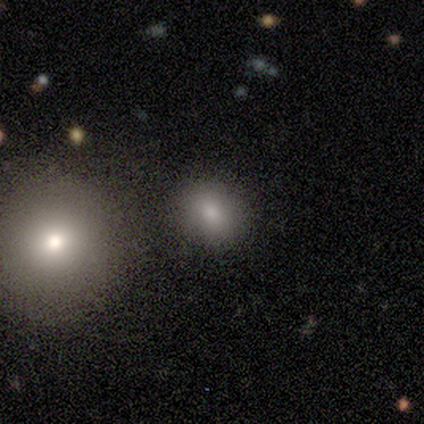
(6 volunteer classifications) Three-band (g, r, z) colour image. It shows a smooth galaxy with no disk features (67%) that is round (50%, tied with in between). Merging: none (75%).